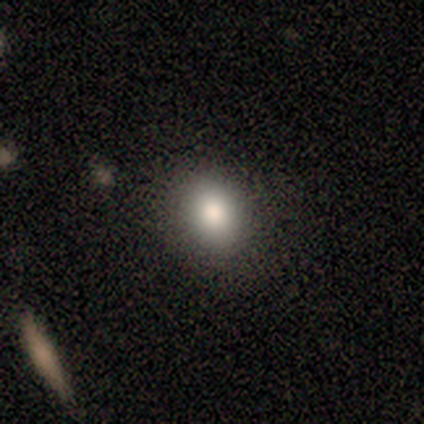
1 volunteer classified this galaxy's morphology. A star or artifact, not a galaxy (100%).

Vote fractions:
- Smooth or featured? star or artifact: 100% / smooth: 0% / featured or disk: 0%